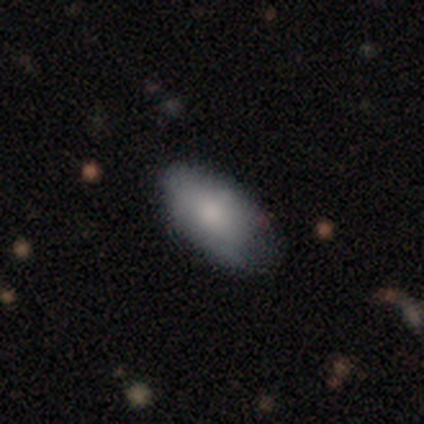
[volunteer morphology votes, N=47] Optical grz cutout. It shows a smooth galaxy with no disk features (77%) that is in between round and cigar-shaped (89%). Merging: none (55%).